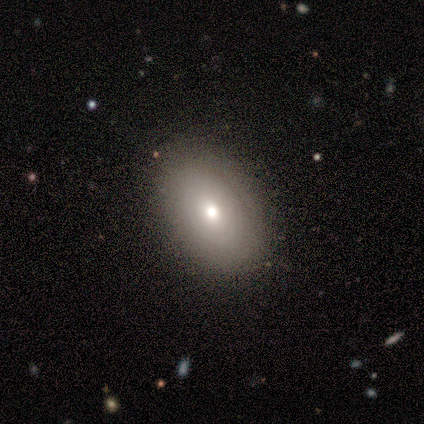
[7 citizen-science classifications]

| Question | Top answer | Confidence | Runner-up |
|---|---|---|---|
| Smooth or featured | smooth | 71% | featured or disk (29%) |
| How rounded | in between | 60% | round (40%) |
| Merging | none | 100% | — |